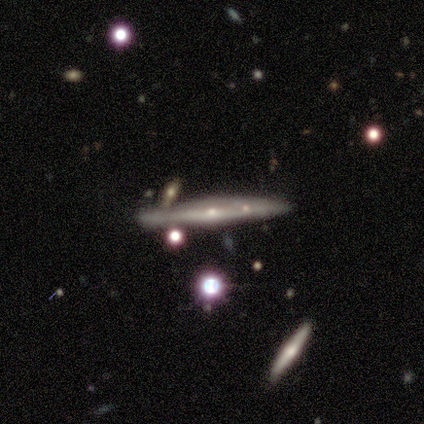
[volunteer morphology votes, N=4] This is clearly a featured or disk galaxy (100%). It is clearly viewed edge-on (100%). Edge-on bulge: possibly none (50%, tied with rounded). Merging: possibly none (50%).